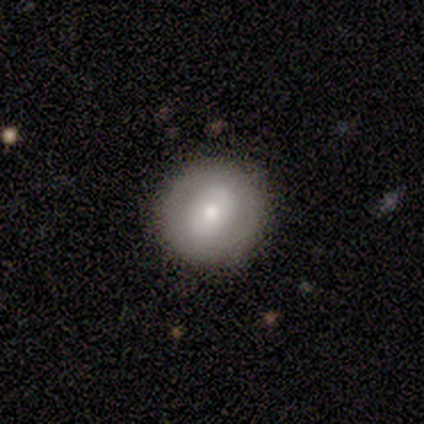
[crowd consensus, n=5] Q: Smooth or featured?
A: smooth (60%); runner-up: featured or disk (20%)
Q: How rounded?
A: round (100%)
Q: Merging?
A: none (100%)